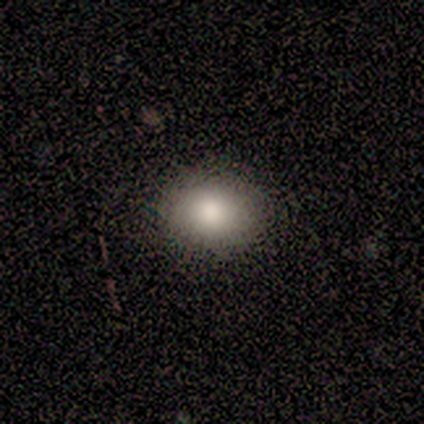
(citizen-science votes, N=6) A smooth galaxy with no disk features (83%) that is round (60%).

Vote fractions:
- Smooth or featured? smooth: 83% / star or artifact: 17% / featured or disk: 0%
- How rounded? round: 60% / in between: 40% / cigar-shaped: 0%
- Merging? none: 100% / minor disturbance: 0% / major disturbance: 0% / merger: 0%